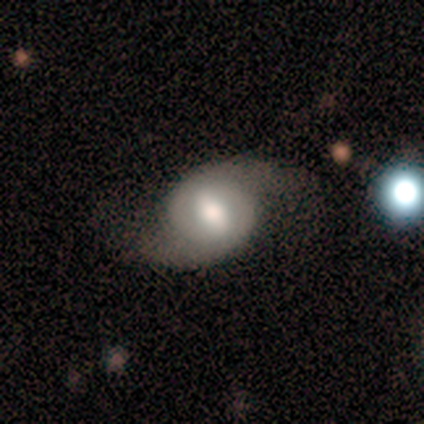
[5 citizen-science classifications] Volunteers were most divided on "spiral winding": loose: 50%, tight: 25%, medium: 25%. More confident: smooth or featured — featured or disk (100%); edge-on disk — no (100%); bar — weak (100%); spiral arm count — 2 (100%); spiral arms — yes (80%); bulge size — moderate (80%); merging — none (80%).